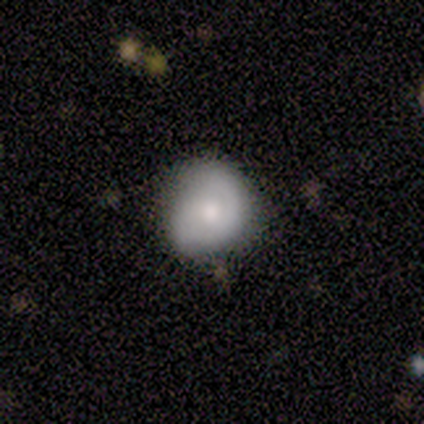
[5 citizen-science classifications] Smooth or featured: smooth — 60% (featured or disk — 40%)
How rounded: round — 100%
Merging: none — 80% (minor disturbance — 20%)